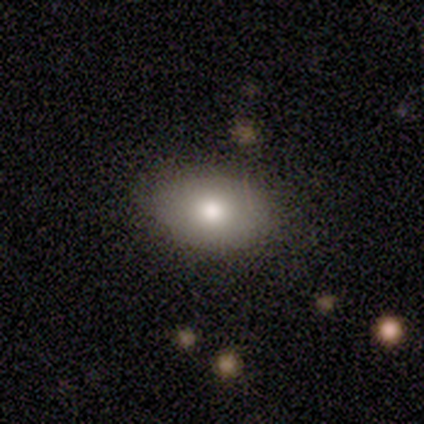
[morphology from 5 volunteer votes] Smooth or featured? 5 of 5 (100%) said smooth. How rounded? 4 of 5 (80%) said in between. Merging? 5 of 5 (100%) said none.